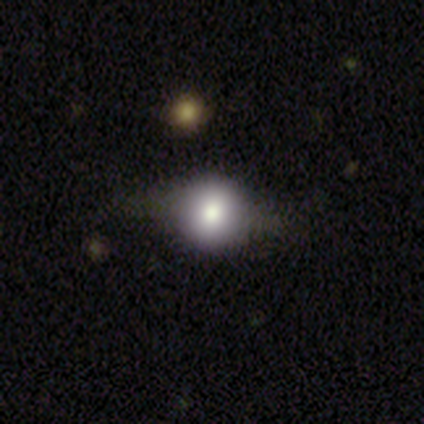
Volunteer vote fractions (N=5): Q: Smooth or featured?
A: smooth (60%); runner-up: featured or disk (40%)
Q: How rounded?
A: round (100%)
Q: Merging?
A: none (80%); runner-up: major disturbance (20%)